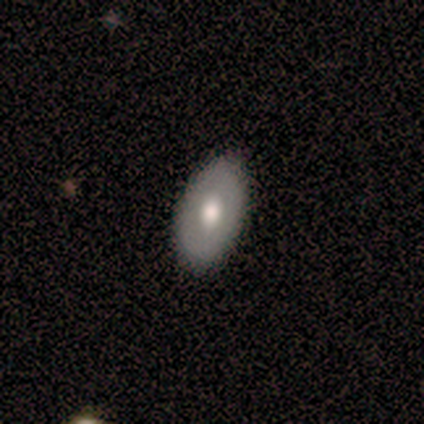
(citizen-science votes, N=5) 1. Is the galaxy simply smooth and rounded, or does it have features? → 80% featured or disk, 20% smooth, 0% star or artifact.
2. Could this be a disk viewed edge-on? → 100% no, 0% yes.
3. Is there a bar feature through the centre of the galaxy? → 75% no, 25% weak, 0% strong.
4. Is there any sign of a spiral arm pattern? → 100% no, 0% yes.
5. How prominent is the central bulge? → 75% moderate, 25% large, 0% dominant, 0% small, 0% none.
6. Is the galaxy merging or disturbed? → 100% none, 0% minor disturbance, 0% major disturbance, 0% merger.